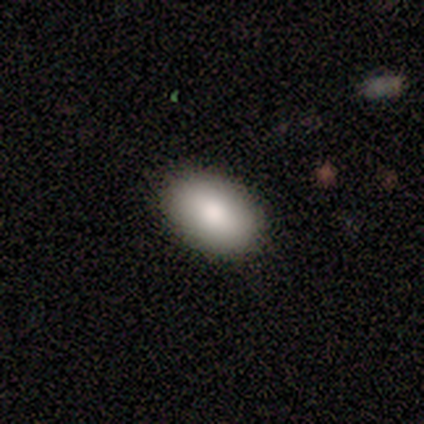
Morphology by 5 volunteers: Smooth or featured: smooth — 100%
How rounded: in between — 100%
Merging: none — 100%